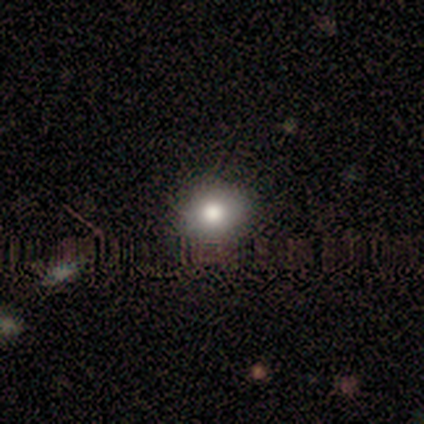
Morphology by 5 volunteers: A smooth galaxy with no disk features (60%) that is in between round and cigar-shaped (67%).

Vote fractions:
- Smooth or featured? smooth: 60% / featured or disk: 40% / star or artifact: 0%
- How rounded? in between: 67% / round: 33% / cigar-shaped: 0%
- Merging? none: 100% / minor disturbance: 0% / major disturbance: 0% / merger: 0%